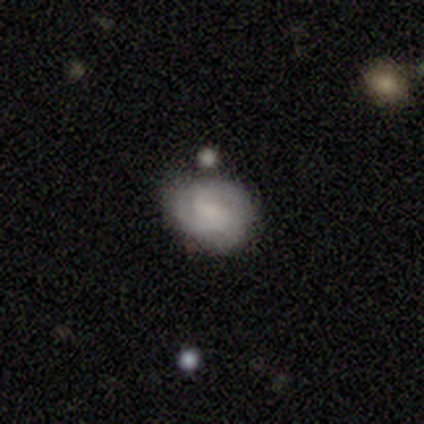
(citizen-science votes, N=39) Morphology: type=featured or disk (54%); edge-on=no (100%); bar=no (48%); spiral arms=yes (100%); winding=medium (48%); arm count=3 (57%); bulge=moderate (33%); merging=none (64%).